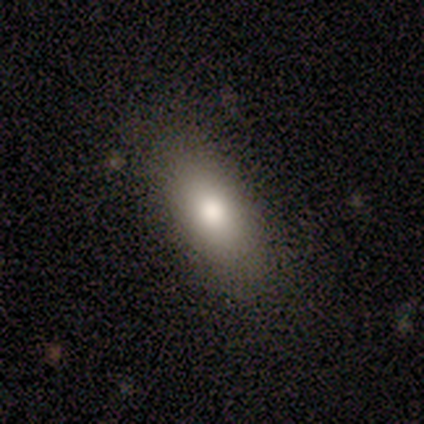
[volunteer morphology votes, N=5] Smooth or featured: smooth — 80% (featured or disk — 20%)
How rounded: in between — 100%
Merging: none — 60% (minor disturbance — 40%)